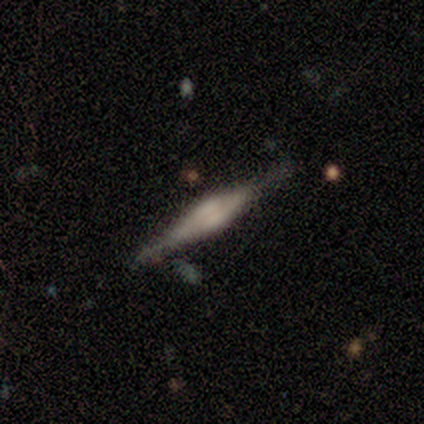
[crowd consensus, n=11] Overall: featured or disk (73%). Edge-on disk: yes (100%). Edge-on bulge: rounded (75%). Merging: none (70%).